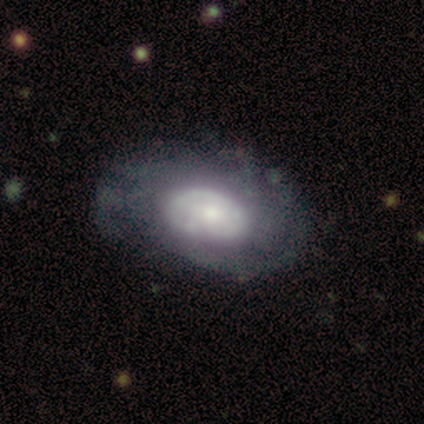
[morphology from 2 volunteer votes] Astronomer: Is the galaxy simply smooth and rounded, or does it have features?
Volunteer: smooth — 50%, tied with featured or disk at 50%.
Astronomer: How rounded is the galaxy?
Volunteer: in between — 100%.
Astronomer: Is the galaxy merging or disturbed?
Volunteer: none — 50%, tied with minor disturbance at 50%.